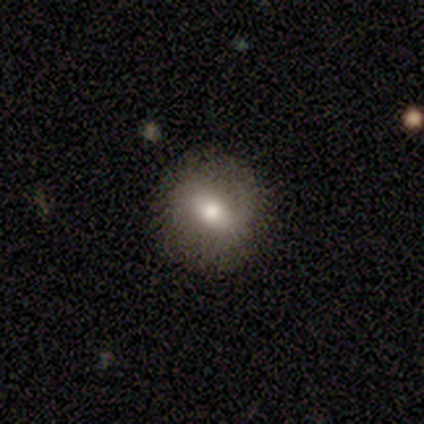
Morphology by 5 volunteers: Q: Smooth or featured?
A: smooth (60%); runner-up: featured or disk (40%)
Q: How rounded?
A: round (67%); runner-up: in between (33%)
Q: Merging?
A: none (80%); runner-up: minor disturbance (20%)